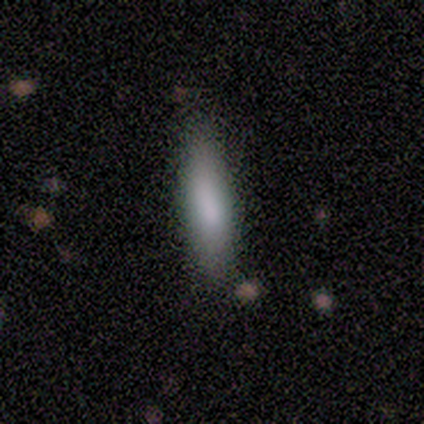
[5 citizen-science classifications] Volunteers were most divided on "how rounded": cigar-shaped: 60%, in between: 40%, round: 0%. More confident: smooth or featured — smooth (100%); merging — none (80%).